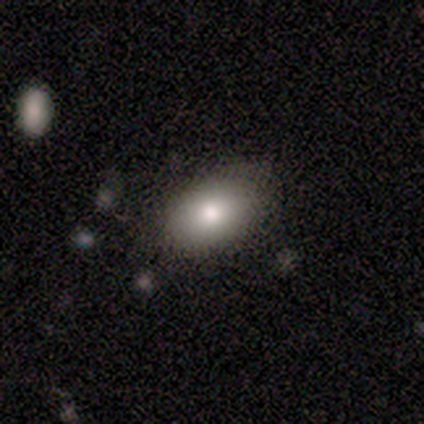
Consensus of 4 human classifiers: Smooth or featured? 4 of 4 (100%) said smooth. How rounded? 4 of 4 (100%) said in between. Merging? 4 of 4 (100%) said none.